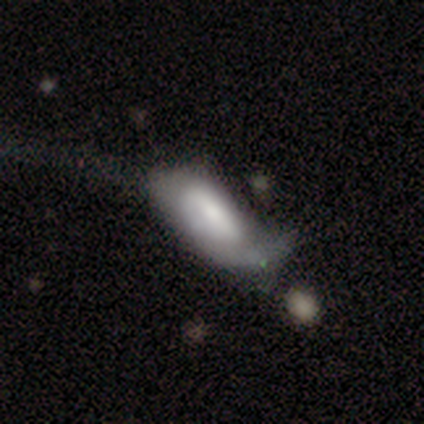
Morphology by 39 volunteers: This is likely a featured or disk galaxy (62%). It is clearly not viewed edge-on (88%). Bar: marginally strong (43%, tied with no). Spiral arm pattern: possibly yes (52%). Spiral arm count: likely 1 (73%). Spiral winding: possibly medium (45%). Central bulge: marginally large (38%, tied with moderate). Merging: possibly major disturbance (55%).